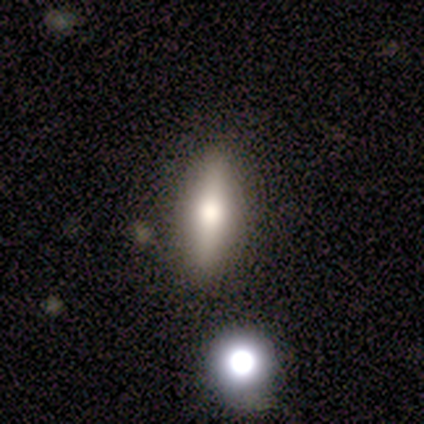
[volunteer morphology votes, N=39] smooth-or-featured: smooth: 62% | featured or disk: 33% | star or artifact: 5%
  how-rounded: cigar-shaped: 54% | in between: 42% | round: 4%
  merging: none: 68% | merger: 8% | minor disturbance: 3% | major disturbance: 3%